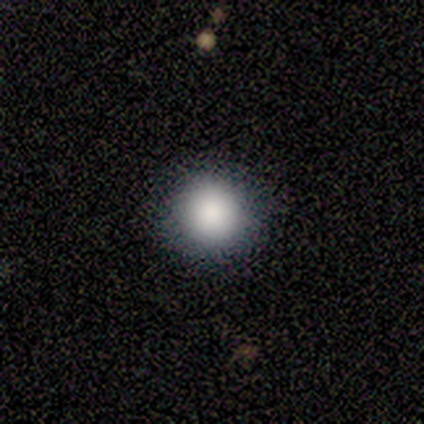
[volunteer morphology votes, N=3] Smooth or featured: smooth — 67% (star or artifact — 33%)
How rounded: round — 100%
Merging: none — 100%